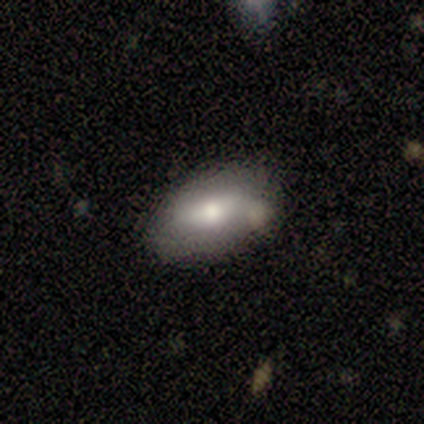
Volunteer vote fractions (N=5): smooth_or_featured: smooth (p=1.00)
how_rounded: in between (p=1.00)
merging: none (p=0.80) [alt: minor disturbance p=0.20]